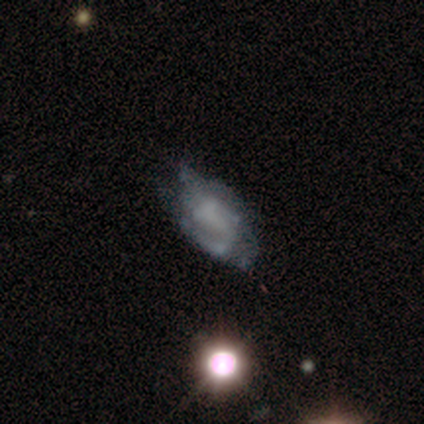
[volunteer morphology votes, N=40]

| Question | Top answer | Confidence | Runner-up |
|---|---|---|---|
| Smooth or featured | featured or disk | 72% | smooth (18%) |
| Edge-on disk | no | 97% | yes (3%) |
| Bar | no | 50% | weak (36%) |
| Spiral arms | yes | 57% | no (43%) |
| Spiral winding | medium | 38% | tight (31%) |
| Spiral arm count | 2 | 44% | can't tell (38%) |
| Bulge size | none | 89% | small (7%) |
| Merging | none | 42% | minor disturbance (31%) |